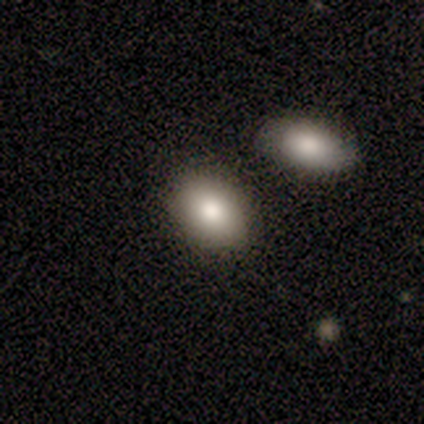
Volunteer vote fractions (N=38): This is likely a smooth galaxy (74%). How rounded: clearly in between (89%). Merging: likely none (79%).